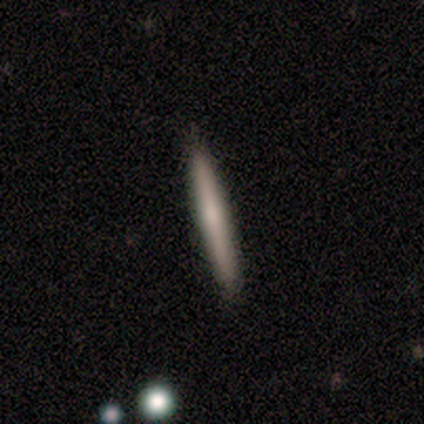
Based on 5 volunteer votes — Smooth or featured? 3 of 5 (60%) said featured or disk. Edge-on disk? 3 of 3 (100%) said yes. Edge-on bulge? 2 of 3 (67%) said rounded. Merging? 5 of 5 (100%) said none.